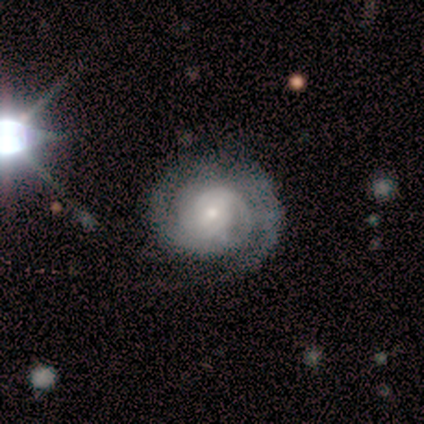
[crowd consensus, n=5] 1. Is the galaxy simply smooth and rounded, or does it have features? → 100% featured or disk, 0% smooth, 0% star or artifact.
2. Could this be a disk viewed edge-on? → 100% no, 0% yes.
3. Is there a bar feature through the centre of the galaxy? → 60% no, 40% weak, 0% strong.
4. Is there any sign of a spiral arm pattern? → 100% yes, 0% no.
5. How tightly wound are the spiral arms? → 100% tight, 0% medium, 0% loose.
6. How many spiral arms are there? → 40% 2 (tied), 40% 3 (tied), 20% can't tell, 0% 1, 0% 4, 0% more than 4.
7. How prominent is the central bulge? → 80% moderate, 20% small, 0% dominant, 0% large, 0% none.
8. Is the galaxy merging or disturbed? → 80% none, 20% minor disturbance, 0% major disturbance, 0% merger.